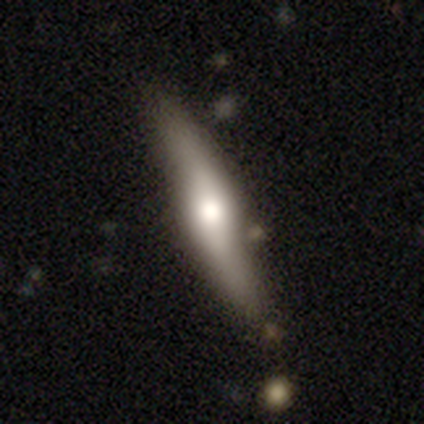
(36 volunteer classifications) Volunteers were most divided on "smooth or featured": featured or disk: 72%, smooth: 28%, star or artifact: 0%. More confident: edge-on bulge — rounded (95%); merging — none (83%); edge-on disk — yes (73%).